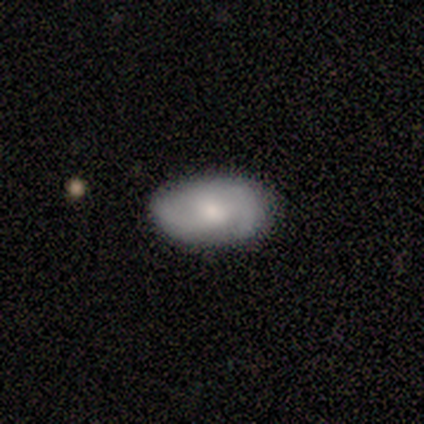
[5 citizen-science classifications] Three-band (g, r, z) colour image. It shows a smooth galaxy with no disk features (60%) that is in between round and cigar-shaped (100%). Merging: none (80%).